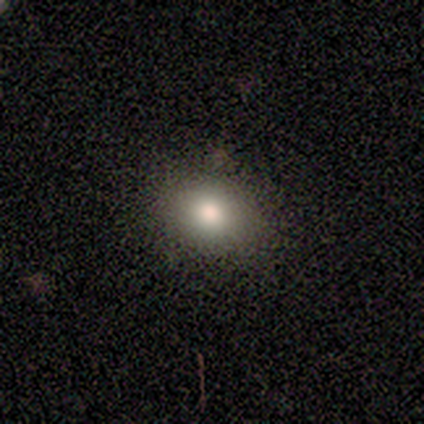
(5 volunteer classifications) Smooth or featured? 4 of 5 (80%) said smooth. How rounded? 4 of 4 (100%) said round. Merging? 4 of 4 (100%) said none.